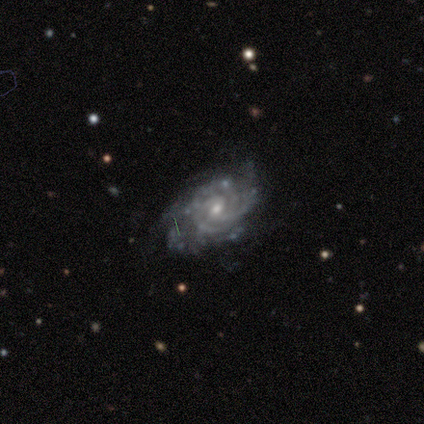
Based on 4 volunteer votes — Smooth or featured?
  - featured or disk: 100% *
  - smooth: 0%
  - star or artifact: 0%
Edge-on disk?
  - no: 100% *
  - yes: 0%
Bar?
  - weak: 50% * (tied)
  - no: 50% * (tied)
  - strong: 0%
Spiral arms?
  - yes: 100% *
  - no: 0%
Spiral winding?
  - tight: 100% *
  - medium: 0%
  - loose: 0%
Spiral arm count?
  - 2: 25% * (tied)
  - 3: 25% * (tied)
  - 4: 25% * (tied)
  - can't tell: 25% * (tied)
  - 1: 0%
  - more than 4: 0%
Bulge size?
  - moderate: 50% * (tied)
  - small: 50% * (tied)
  - dominant: 0%
  - large: 0%
  - none: 0%
Merging?
  - none: 75% *
  - minor disturbance: 25%
  - major disturbance: 0%
  - merger: 0%